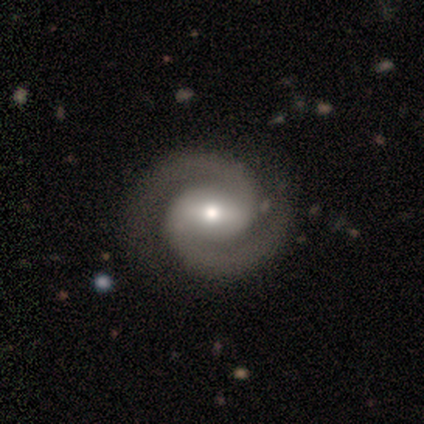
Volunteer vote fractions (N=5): A featured or disk galaxy (100%) with a strong bar (40%, tied with weak), 2 (100%) tight (60%) spiral arms (100%) and a moderate central bulge (100%).

Vote fractions:
- Smooth or featured? featured or disk: 100% / smooth: 0% / star or artifact: 0%
- Edge-on disk? no: 100% / yes: 0%
- Bar? strong: 40% (tied) / weak: 40% (tied) / no: 20%
- Spiral arms? yes: 100% / no: 0%
- Spiral winding? tight: 60% / medium: 40% / loose: 0%
- Spiral arm count? 2: 100% / 1: 0% / 3: 0% / 4: 0% / more than 4: 0% / can't tell: 0%
- Bulge size? moderate: 100% / dominant: 0% / large: 0% / small: 0% / none: 0%
- Merging? none: 100% / minor disturbance: 0% / major disturbance: 0% / merger: 0%